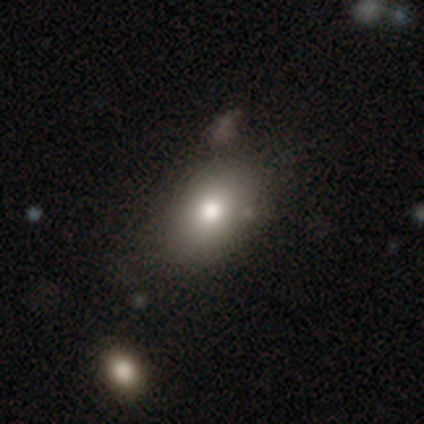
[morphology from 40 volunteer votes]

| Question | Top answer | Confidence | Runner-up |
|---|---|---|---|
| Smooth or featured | smooth | 75% | featured or disk (15%) |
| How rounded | in between | 90% | round (10%) |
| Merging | none | 53% | minor disturbance (11%) |